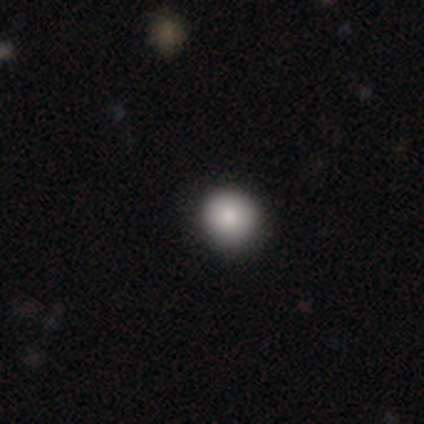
This appears to be a smooth galaxy with no disk features (80%) that is round (75%). Merging: none (100%).